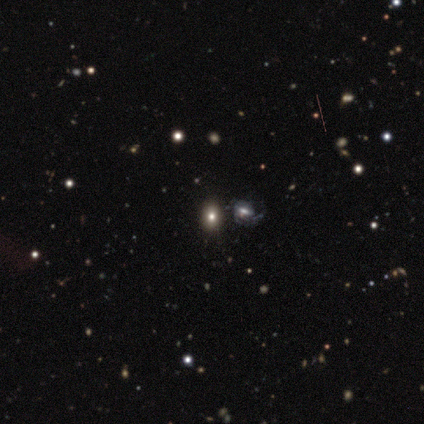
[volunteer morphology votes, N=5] A smooth galaxy with no disk features (60%) that is round (67%). Merging: none (100%).